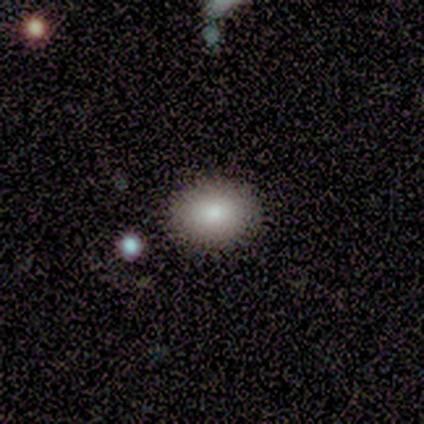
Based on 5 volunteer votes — smooth_or_featured: smooth (p=1.00)
how_rounded: in between (p=0.60) [alt: round p=0.40]
merging: none (p=0.80) [alt: minor disturbance p=0.20]